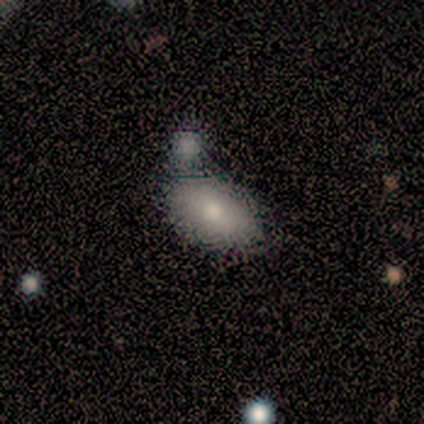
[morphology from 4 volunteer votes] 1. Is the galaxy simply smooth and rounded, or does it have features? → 50% smooth, 25% featured or disk, 25% star or artifact.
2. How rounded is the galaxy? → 100% in between, 0% round, 0% cigar-shaped.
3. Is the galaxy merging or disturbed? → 33% none (tied), 33% minor disturbance (tied), 33% merger (tied), 0% major disturbance.